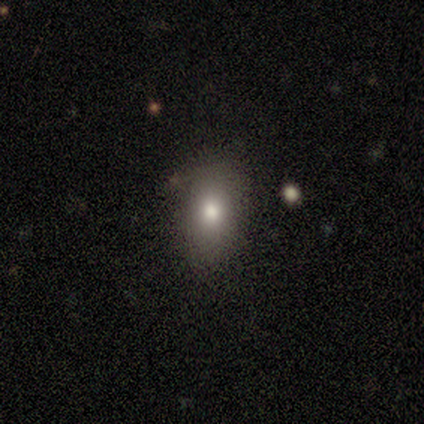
A smooth galaxy with no disk features (80%) that is in between round and cigar-shaped (75%). Merging: none (100%).